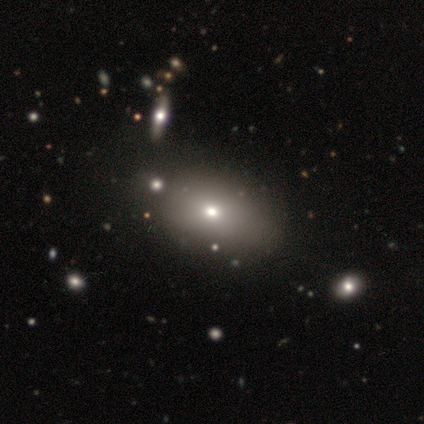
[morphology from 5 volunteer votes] This appears to be a smooth galaxy with no disk features (100%) that is in between round and cigar-shaped (80%). Merging: none (60%).